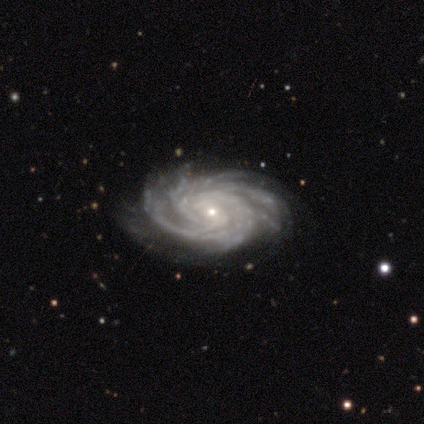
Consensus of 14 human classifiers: This appears to be a featured or disk galaxy (93%) with no bar (54%), more than 4 (38%) tight (92%) spiral arms (100%) and a small central bulge (85%). Merging: none (54%).